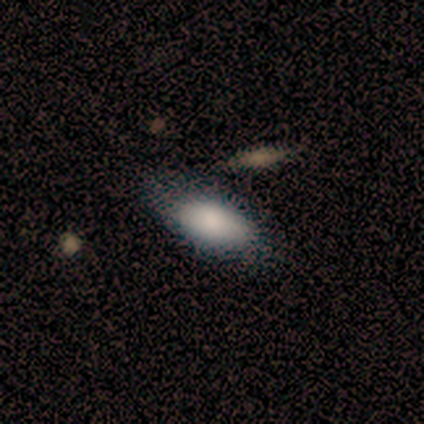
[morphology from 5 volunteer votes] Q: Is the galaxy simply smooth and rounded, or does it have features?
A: smooth — 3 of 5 (60%).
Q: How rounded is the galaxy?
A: in between — 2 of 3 (67%).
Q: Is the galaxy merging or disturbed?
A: none — 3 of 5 (60%).